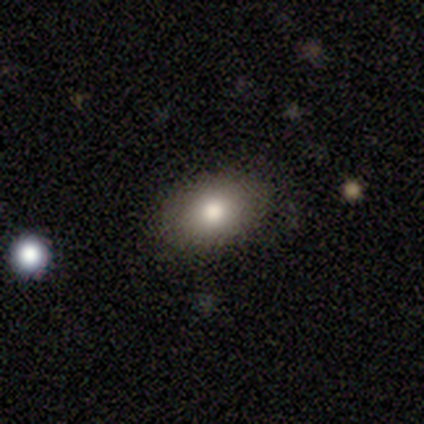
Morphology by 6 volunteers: Q: Smooth or featured?
A: smooth (83%); runner-up: featured or disk (17%)
Q: How rounded?
A: in between (80%); runner-up: round (20%)
Q: Merging?
A: none (83%); runner-up: minor disturbance (17%)